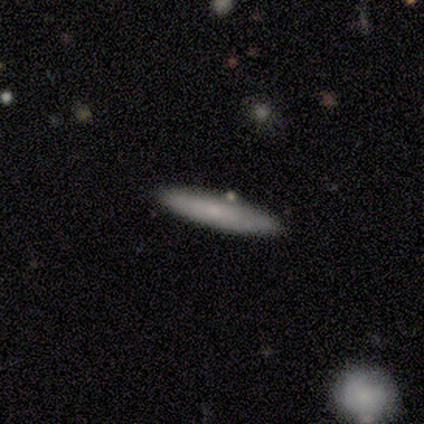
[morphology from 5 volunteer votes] Smooth or featured? smooth (80%)
How rounded? cigar-shaped (75%)
Merging? none (80%)